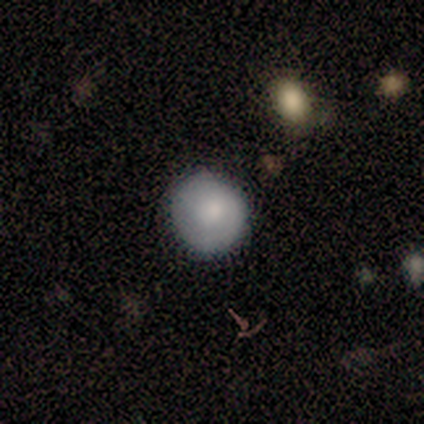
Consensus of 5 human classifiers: This appears to be a smooth galaxy with no disk features (60%) that is round (100%). Merging: none (100%).